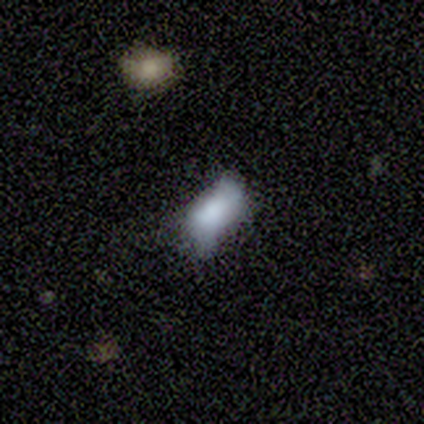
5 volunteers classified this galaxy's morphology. This appears to be a smooth galaxy with no disk features (80%) that is in between round and cigar-shaped (100%). Merging: minor disturbance (60%).